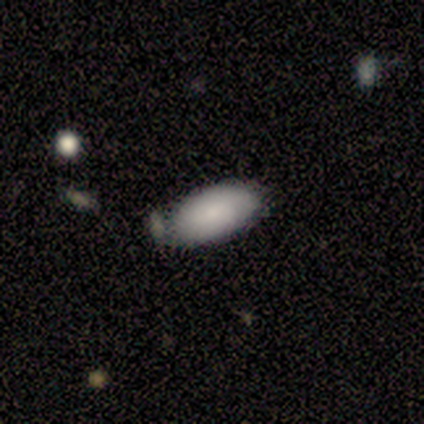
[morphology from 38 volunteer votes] smooth-or-featured: smooth: 66% | featured or disk: 24% | star or artifact: 11%
  how-rounded: in between: 88% | cigar-shaped: 8% | round: 4%
  merging: none: 47% | merger: 24% | minor disturbance: 21% | major disturbance: 9%